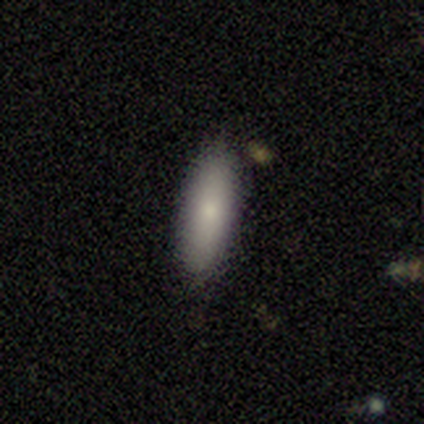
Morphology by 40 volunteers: Smooth or featured? smooth (85%)
How rounded? cigar-shaped (59%)
Merging? none (87%)